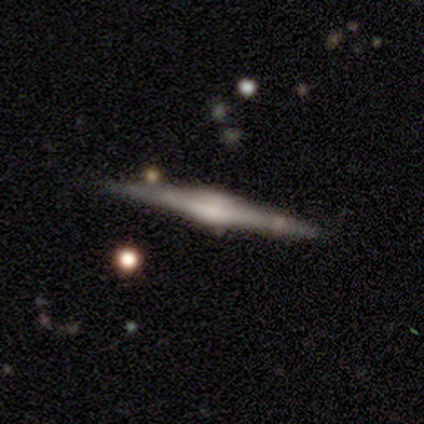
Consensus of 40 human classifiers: Smooth or featured? featured or disk (78%)
Edge-on disk? yes (100%)
Edge-on bulge? rounded (74%)
Merging? none (87%)